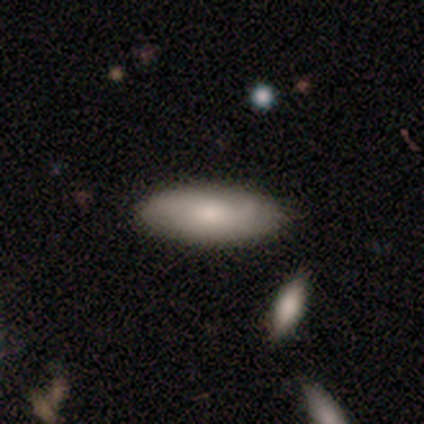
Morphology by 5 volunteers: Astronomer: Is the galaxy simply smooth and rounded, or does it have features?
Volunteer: featured or disk — 60% (runner-up: smooth, 40%).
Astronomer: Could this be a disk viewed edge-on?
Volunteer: no — 67%.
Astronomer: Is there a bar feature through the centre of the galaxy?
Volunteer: no — 100%.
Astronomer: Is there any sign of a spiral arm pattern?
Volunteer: yes — 50%, tied with no at 50%.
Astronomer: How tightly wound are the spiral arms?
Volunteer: medium — 100%.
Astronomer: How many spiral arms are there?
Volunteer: can't tell — 100%.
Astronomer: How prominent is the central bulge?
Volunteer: large — 50%, tied with none at 50%.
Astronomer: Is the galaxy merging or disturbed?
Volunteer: none — 80%.